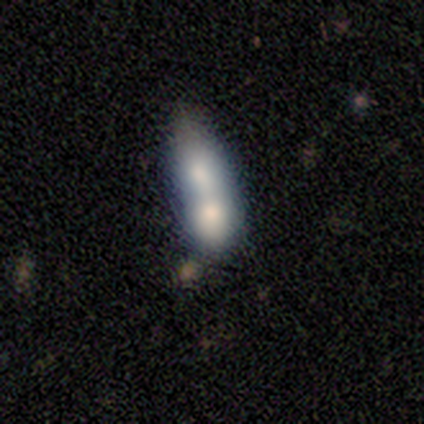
smooth-or-featured: smooth: 80% | featured or disk: 20% | star or artifact: 0%
  how-rounded: cigar-shaped: 50% | round: 25% | in between: 25%
  merging: merger: 60% | none: 20% | major disturbance: 20% | minor disturbance: 0%